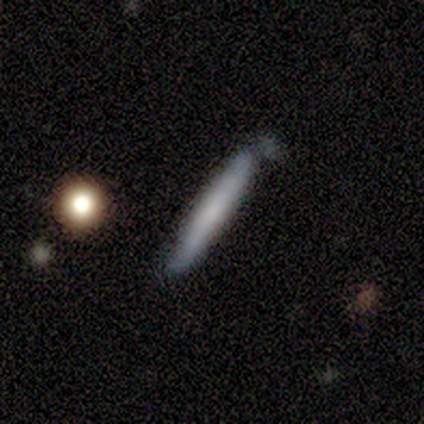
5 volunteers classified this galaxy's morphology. Smooth or featured? smooth (60%)
How rounded? cigar-shaped (100%)
Merging? minor disturbance (60%)